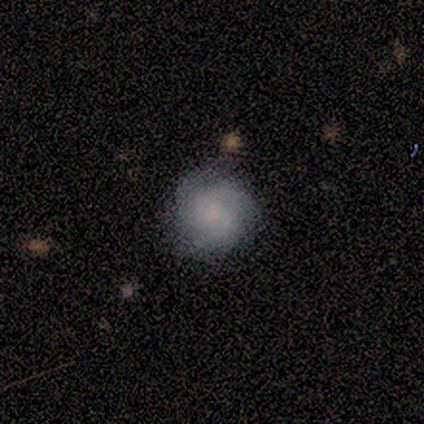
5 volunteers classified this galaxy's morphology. A featured or disk galaxy (60%) with no bar (67%), 3 (67%) medium (67%) spiral arms (100%) and a moderate central bulge (67%). Merging: none (80%).